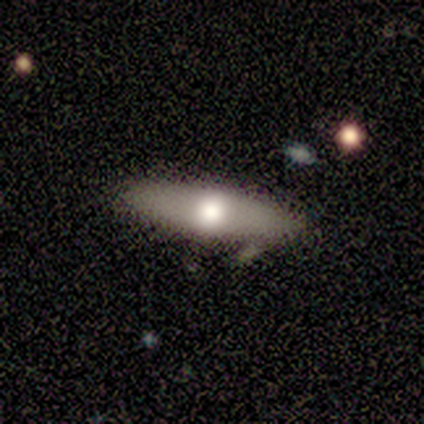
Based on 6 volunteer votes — Smooth or featured? 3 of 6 (50%) said smooth. How rounded? 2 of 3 (67%) said cigar-shaped. Merging? 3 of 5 (60%) said none.